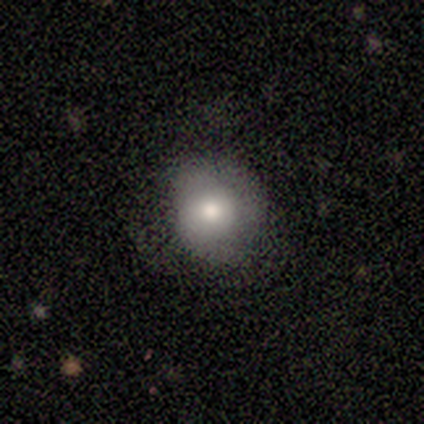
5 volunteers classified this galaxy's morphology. Q: Smooth or featured?
A: smooth (100%)
Q: How rounded?
A: round (80%); runner-up: in between (20%)
Q: Merging?
A: none (40%); tied with: minor disturbance (40%)